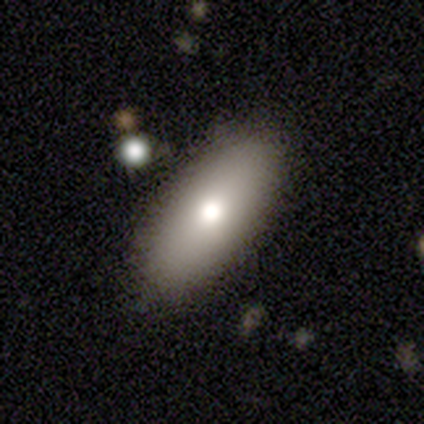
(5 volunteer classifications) This is likely a smooth galaxy (60%). How rounded: clearly in between (100%). Merging: possibly none (50%).